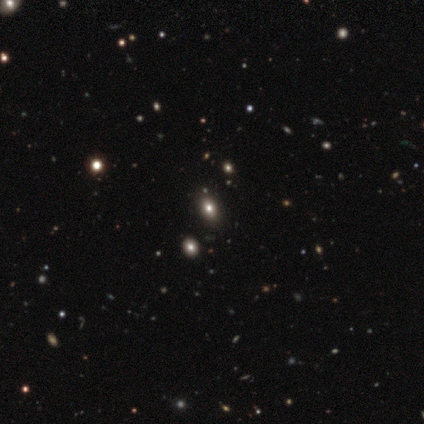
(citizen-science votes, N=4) smooth-or-featured: smooth: 50% (tied) | star or artifact: 50% (tied) | featured or disk: 0%
  how-rounded: in between: 100% | round: 0% | cigar-shaped: 0%
  merging: none: 100% | minor disturbance: 0% | major disturbance: 0% | merger: 0%